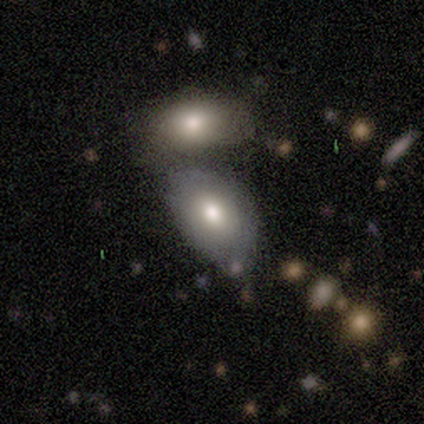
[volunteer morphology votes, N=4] smooth-or-featured: smooth: 50% (tied) | featured or disk: 50% (tied) | star or artifact: 0%
  how-rounded: in between: 100% | round: 0% | cigar-shaped: 0%
  merging: none: 50% | major disturbance: 25% | merger: 25% | minor disturbance: 0%